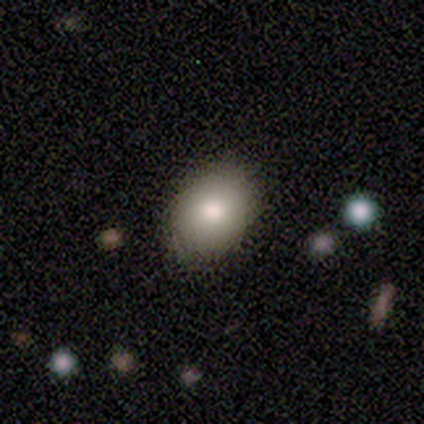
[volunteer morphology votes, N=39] type=smooth (82%); roundness=in between (69%); merging=none (82%).